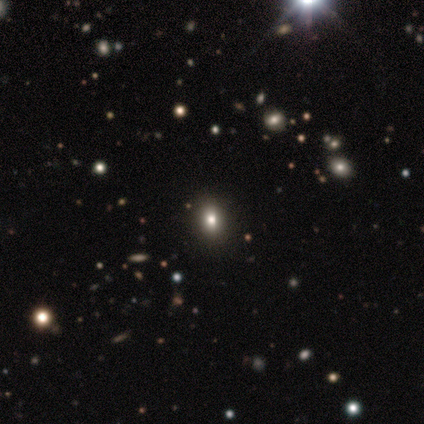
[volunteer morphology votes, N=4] Overall: smooth (50%; featured or disk 25%). How rounded: round (100%). Merging: none (67%; minor disturbance 33%).